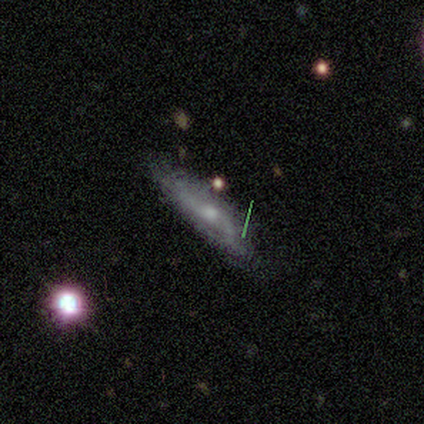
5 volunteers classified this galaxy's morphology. This appears to be a featured or disk galaxy (80%) with no bar (75%), no spiral arms (75%) and a moderate central bulge (75%). Merging: none (80%).